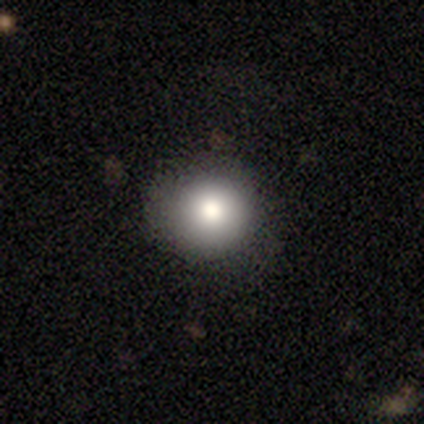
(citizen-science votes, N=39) Q: Smooth or featured?
A: smooth (74%); runner-up: featured or disk (21%)
Q: How rounded?
A: round (97%); runner-up: in between (3%)
Q: Merging?
A: none (89%); runner-up: minor disturbance (11%)